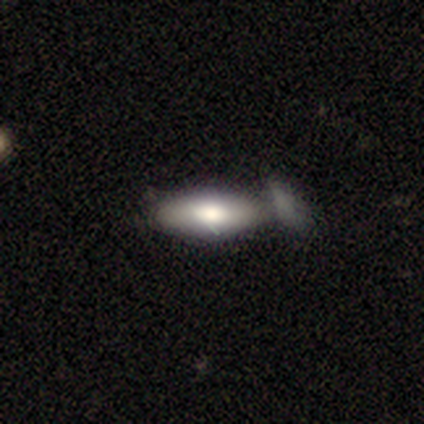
smooth_or_featured: smooth (p=0.80) [alt: featured or disk p=0.20]
how_rounded: in between (p=0.75) [alt: cigar-shaped p=0.25]
merging: none (p=0.40) [tied with: merger p=0.40]